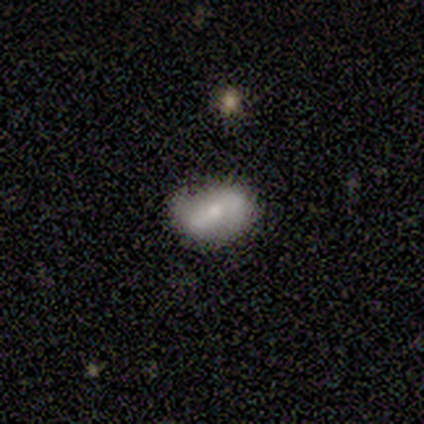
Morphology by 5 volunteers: A smooth galaxy with no disk features (40%, tied with featured or disk) that is in between round and cigar-shaped (100%).

Vote fractions:
- Smooth or featured? smooth: 40% (tied) / featured or disk: 40% (tied) / star or artifact: 20%
- How rounded? in between: 100% / round: 0% / cigar-shaped: 0%
- Merging? none: 50% (tied) / minor disturbance: 50% (tied) / major disturbance: 0% / merger: 0%